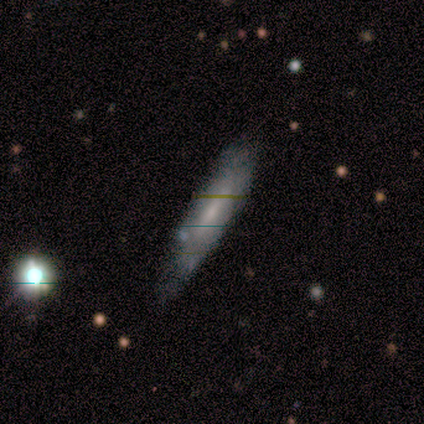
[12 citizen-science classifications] Smooth or featured? 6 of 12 (50%) said smooth. How rounded? 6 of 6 (100%) said cigar-shaped. Merging? 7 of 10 (70%) said none.